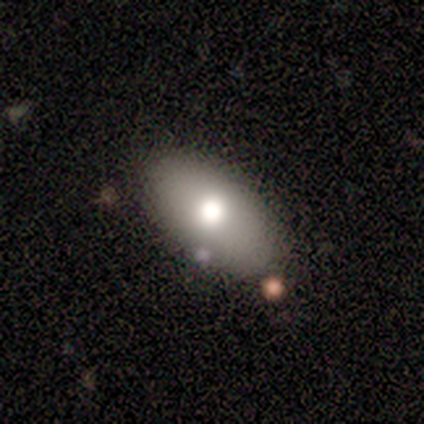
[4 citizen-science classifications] Q: Smooth or featured?
A: smooth (75%); runner-up: star or artifact (25%)
Q: How rounded?
A: in between (100%)
Q: Merging?
A: none (67%); runner-up: minor disturbance (33%)